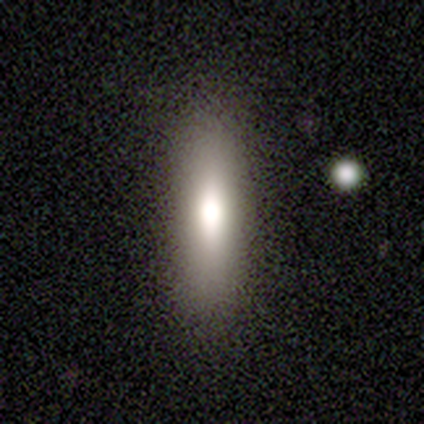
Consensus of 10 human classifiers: Smooth or featured? smooth (80%)
How rounded? cigar-shaped (75%)
Merging? none (100%)